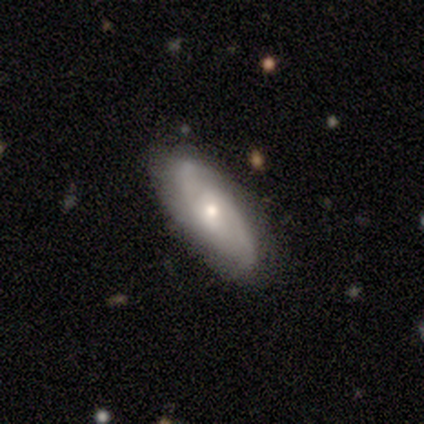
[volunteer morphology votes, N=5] Volunteers were most divided on "smooth or featured": smooth: 60%, featured or disk: 40%, star or artifact: 0%. More confident: merging — none (80%); how rounded — in between (67%).